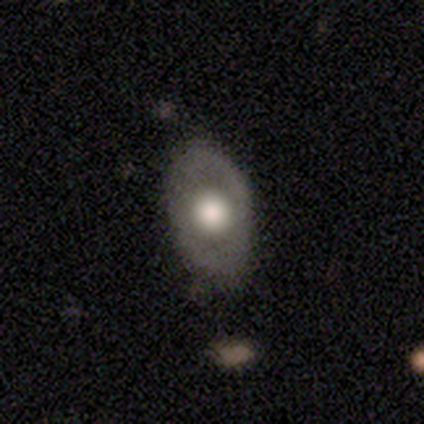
smooth_or_featured: featured or disk (p=0.50) [alt: smooth p=0.47]
disk_edge_on: no (p=1.00)
bar: no (p=0.89) [alt: strong p=0.05]
has_spiral_arms: no (p=0.89) [alt: yes p=0.11]
bulge_size: large (p=0.47) [alt: moderate p=0.42]
merging: none (p=0.81) [alt: minor disturbance p=0.16]